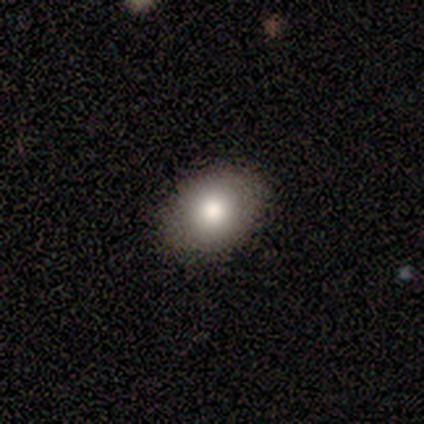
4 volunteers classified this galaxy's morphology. Overall: smooth (75%). How rounded: in between (100%). Merging: none (100%).